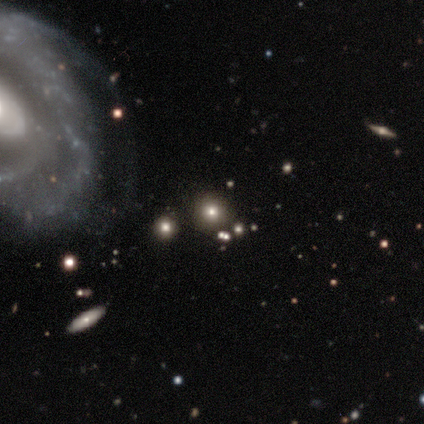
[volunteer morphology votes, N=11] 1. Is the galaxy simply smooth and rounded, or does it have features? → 55% smooth, 27% star or artifact, 18% featured or disk.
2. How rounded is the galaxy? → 83% round, 17% in between, 0% cigar-shaped.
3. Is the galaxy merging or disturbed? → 62% none, 12% minor disturbance, 12% major disturbance, 12% merger.